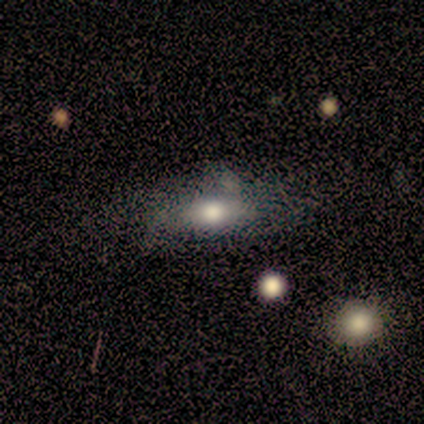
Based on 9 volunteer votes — Smooth or featured? smooth (89%)
How rounded? in between (50%)
Merging? none (67%)